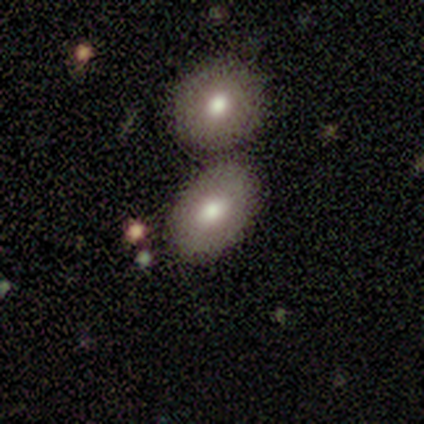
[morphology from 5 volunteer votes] This appears to be a smooth galaxy with no disk features (80%) that is in between round and cigar-shaped (75%). Merging: none (40%, tied with merger).